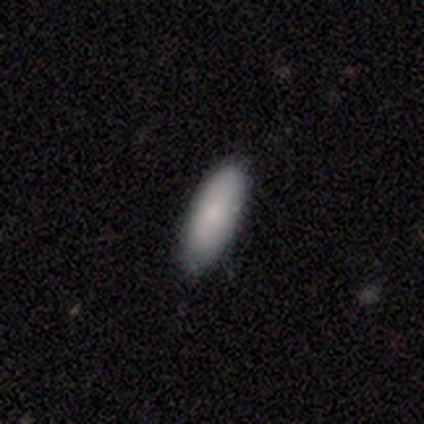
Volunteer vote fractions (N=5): This appears to be a smooth galaxy with no disk features (100%) that is in between round and cigar-shaped (80%). Merging: none (80%).